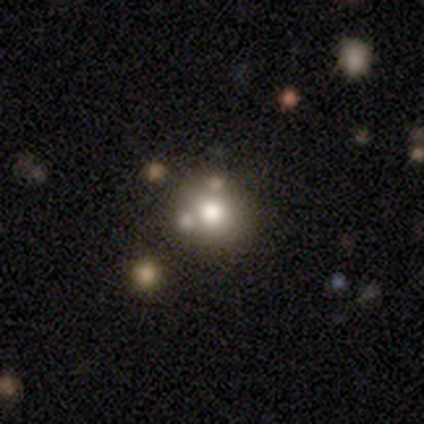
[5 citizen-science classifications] Smooth or featured: featured or disk — 40% (tied with star or artifact — 40%)
Edge-on disk: no — 100%
Bar: no — 100%
Spiral arms: no — 100%
Bulge size: large — 100%
Merging: none — 67% (minor disturbance — 33%)